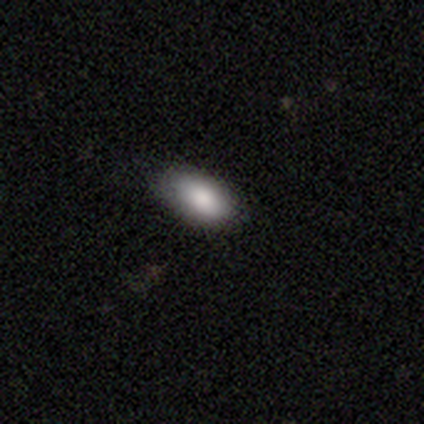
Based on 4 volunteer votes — Consensus on every question: smooth or featured — smooth (100%); how rounded — in between (100%); merging — none (100%).